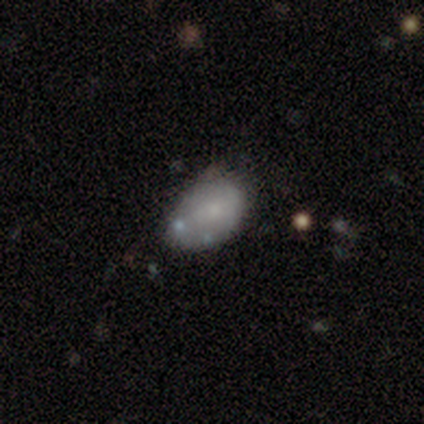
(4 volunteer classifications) Volunteers were most divided on "merging": none: 67%, minor disturbance: 33%, major disturbance: 0%, merger: 0%. More confident: how rounded — in between (100%); smooth or featured — smooth (75%).